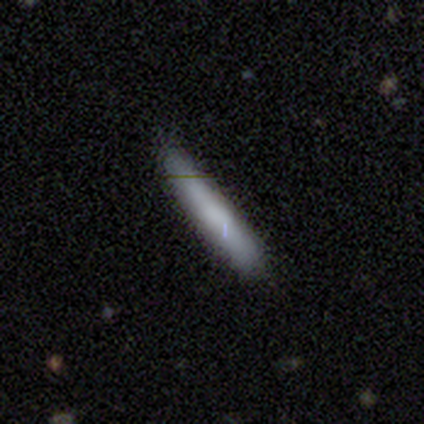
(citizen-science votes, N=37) smooth_or_featured: smooth (p=0.59) [alt: featured or disk p=0.32]
how_rounded: cigar-shaped (p=0.86) [alt: in between p=0.14]
merging: none (p=0.68) [alt: minor disturbance p=0.24]